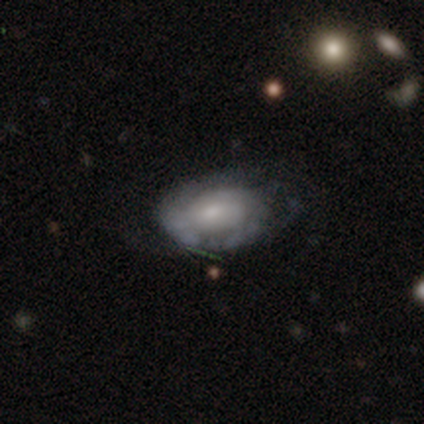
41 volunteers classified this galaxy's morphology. Q: Smooth or featured?
A: featured or disk (76%); runner-up: smooth (17%)
Q: Edge-on disk?
A: no (94%); runner-up: yes (6%)
Q: Bar?
A: no (69%); runner-up: weak (31%)
Q: Spiral arms?
A: yes (55%); runner-up: no (45%)
Q: Spiral winding?
A: tight (50%); runner-up: medium (31%)
Q: Spiral arm count?
A: can't tell (56%); runner-up: 2 (25%)
Q: Bulge size?
A: small (45%); runner-up: moderate (34%)
Q: Merging?
A: none (58%); runner-up: minor disturbance (24%)